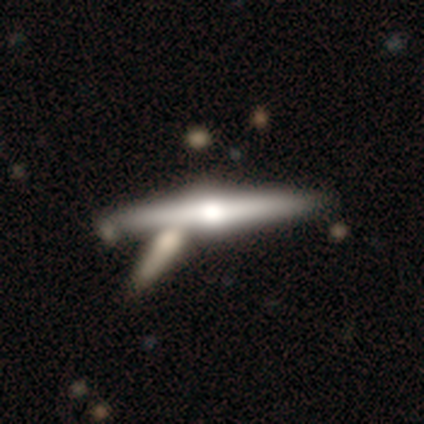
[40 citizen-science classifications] featured or disk 80%, smooth 18%, star or artifact 2%. Down the decision tree: edge-on disk — yes (100%); edge-on bulge — rounded (94%); merging — none (54%).